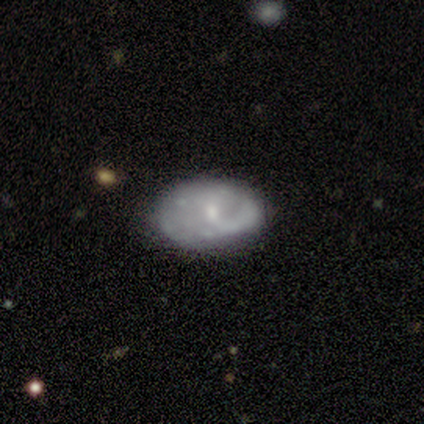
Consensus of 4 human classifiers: Morphology: type=smooth (50%, tied with featured or disk); roundness=in between (100%); merging=none (100%).